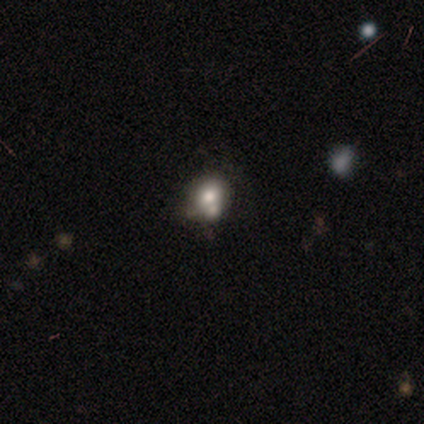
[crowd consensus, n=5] Q: Smooth or featured?
A: smooth (60%); runner-up: featured or disk (20%)
Q: How rounded?
A: round (67%); runner-up: in between (33%)
Q: Merging?
A: merger (75%); runner-up: none (25%)